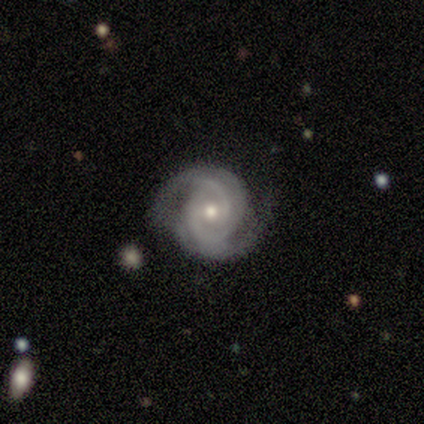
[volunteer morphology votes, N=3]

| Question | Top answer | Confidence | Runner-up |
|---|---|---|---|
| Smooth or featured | featured or disk | 100% | — |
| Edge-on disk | no | 100% | — |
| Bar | strong | 33% | tied: weak (33%), no (33%) |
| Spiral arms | yes | 100% | — |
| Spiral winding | medium | 100% | — |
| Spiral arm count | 2 | 67% | 3 (33%) |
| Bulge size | moderate | 100% | — |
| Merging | none | 100% | — |